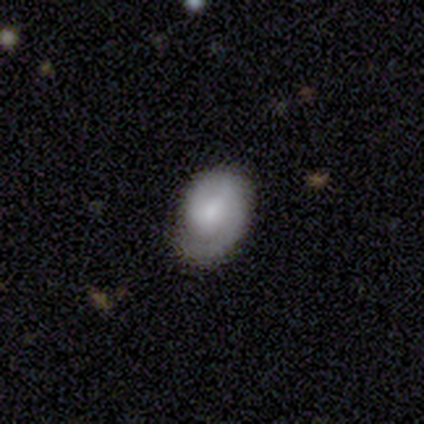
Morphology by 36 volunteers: Smooth or featured? 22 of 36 (61%) said featured or disk. Edge-on disk? 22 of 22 (100%) said no. Bar? 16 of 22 (73%) said no. Spiral arms? 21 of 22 (95%) said yes. Spiral winding? 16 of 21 (76%) said tight. Spiral arm count? 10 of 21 (48%) said 1. Bulge size? 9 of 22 (41%, tied with small) said moderate. Merging? 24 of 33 (73%) said none.